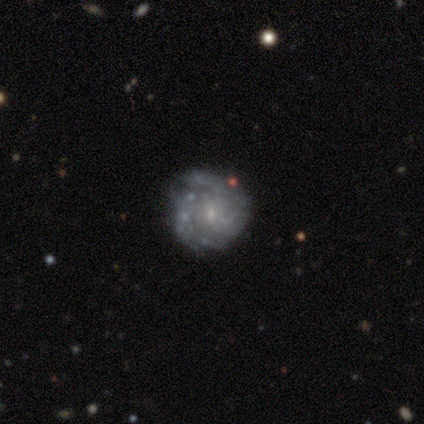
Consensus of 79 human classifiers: smooth-or-featured: featured or disk: 94% | star or artifact: 4% | smooth: 3%
  disk-edge-on: no: 100% | yes: 0%
    bar: no: 65% | weak: 32% | strong: 3%
    has-spiral-arms: yes: 89% | no: 11%
      spiral-winding: tight: 52% | medium: 39% | loose: 9%
      spiral-arm-count: 3: 42% | can't tell: 38% | 4: 8% | 2: 6% | more than 4: 6% | 1: 0%
    bulge-size: small: 82% | moderate: 9% | none: 7% | large: 1% | dominant: 0%
  merging: none: 43% | minor disturbance: 20% | major disturbance: 3% | merger: 1%